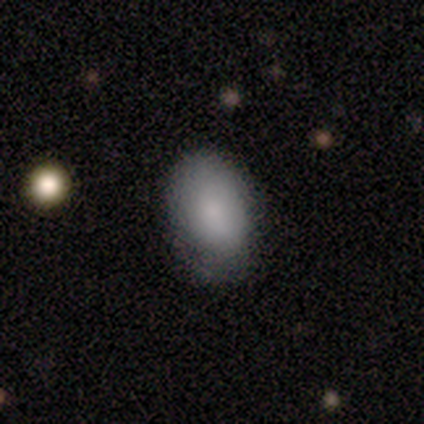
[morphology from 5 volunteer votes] Smooth or featured: smooth — 100%
How rounded: in between — 100%
Merging: none — 80% (minor disturbance — 20%)